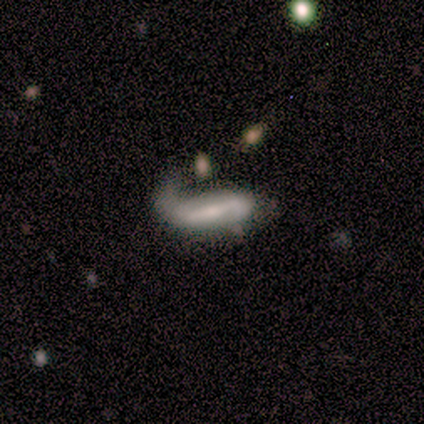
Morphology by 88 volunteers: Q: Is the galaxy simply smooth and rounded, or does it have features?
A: featured or disk — 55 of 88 (62%).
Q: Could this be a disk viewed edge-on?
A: no — 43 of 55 (78%).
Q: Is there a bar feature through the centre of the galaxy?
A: strong — 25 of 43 (58%).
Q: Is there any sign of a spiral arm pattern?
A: yes — 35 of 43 (81%).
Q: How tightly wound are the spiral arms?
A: loose — 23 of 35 (66%).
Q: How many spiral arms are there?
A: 2 — 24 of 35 (69%).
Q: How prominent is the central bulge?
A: moderate — 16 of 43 (37%).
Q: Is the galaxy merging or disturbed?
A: major disturbance — 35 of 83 (42%).